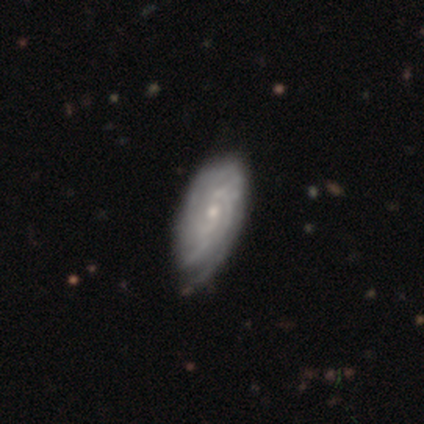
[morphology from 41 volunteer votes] This is clearly a featured or disk galaxy (93%). It is clearly not viewed edge-on (97%). Bar: likely no (70%). Spiral arm pattern: clearly yes (95%). Spiral arm count: marginally can't tell (43%). Spiral winding: likely tight (77%). Central bulge: likely small (68%). Merging: marginally none (38%).